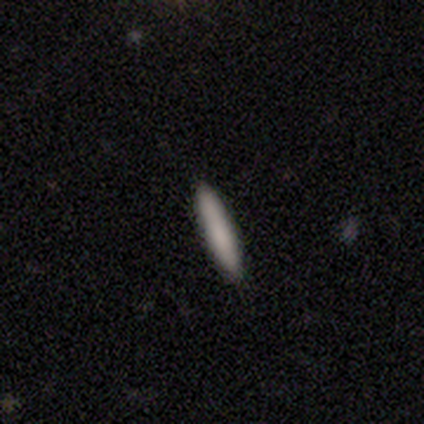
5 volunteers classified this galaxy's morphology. A smooth galaxy with no disk features (40%, tied with star or artifact) that is cigar-shaped (100%). Merging: none (100%).